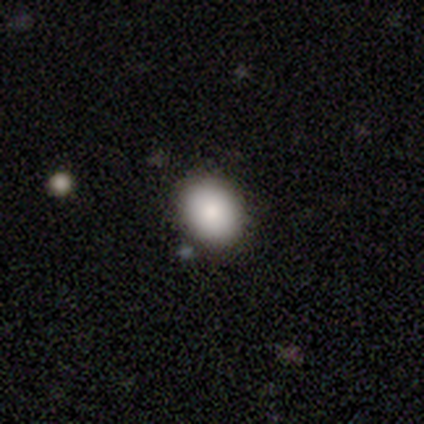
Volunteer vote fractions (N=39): smooth-or-featured: smooth: 82% | featured or disk: 10% | star or artifact: 8%
  how-rounded: in between: 56% | round: 44% | cigar-shaped: 0%
  merging: none: 78% | minor disturbance: 17% | merger: 6% | major disturbance: 0%